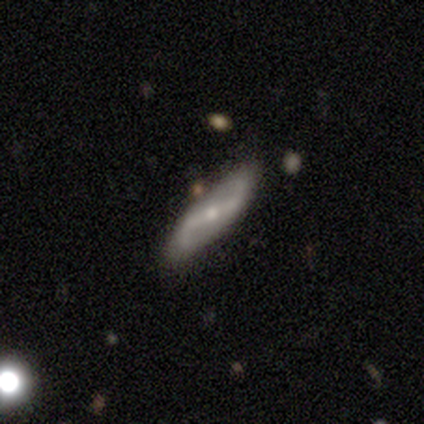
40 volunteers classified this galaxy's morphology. Volunteers were most divided on "bar": strong: 62%, weak: 25%, no: 12%. More confident: spiral arms — yes (100%); spiral arm count — 2 (96%); bulge size — small (88%); spiral winding — loose (83%); merging — none (82%); edge-on disk — no (80%); smooth or featured — featured or disk (75%).